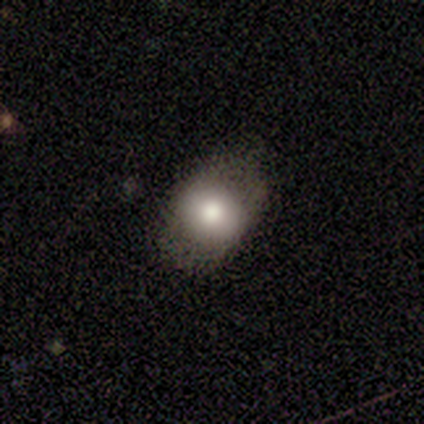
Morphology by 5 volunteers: smooth-or-featured: smooth: 80% | featured or disk: 20% | star or artifact: 0%
  how-rounded: round: 50% (tied) | in between: 50% (tied) | cigar-shaped: 0%
  merging: none: 80% | minor disturbance: 20% | major disturbance: 0% | merger: 0%